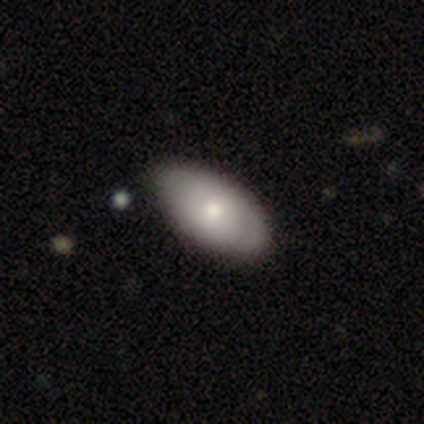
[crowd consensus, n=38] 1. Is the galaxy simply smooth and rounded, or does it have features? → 63% smooth, 34% featured or disk, 3% star or artifact.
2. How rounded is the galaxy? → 96% in between, 4% round, 0% cigar-shaped.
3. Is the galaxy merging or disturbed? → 65% none, 11% minor disturbance, 5% merger, 3% major disturbance.